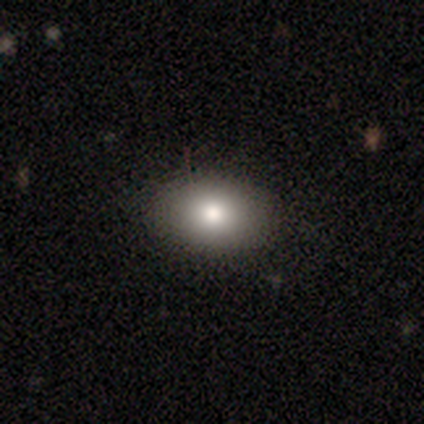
Smooth or featured? smooth (60%)
How rounded? in between (100%)
Merging? none (100%)